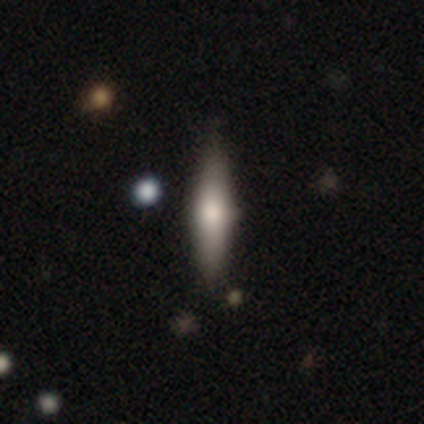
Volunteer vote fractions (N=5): smooth 100%, featured or disk 0%, star or artifact 0%. Down the decision tree: how rounded — cigar-shaped (80%); merging — none (100%).